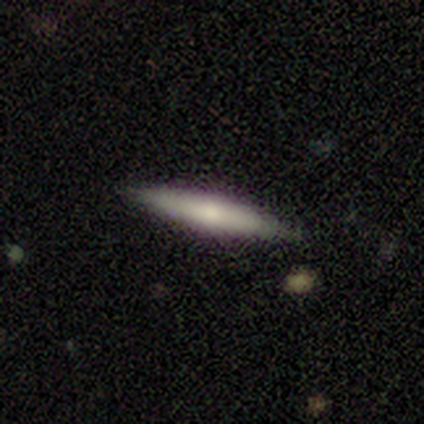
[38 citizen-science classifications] Volunteers were most divided on "smooth or featured": smooth: 66%, featured or disk: 32%, star or artifact: 3%. More confident: merging — none (86%); how rounded — cigar-shaped (76%).